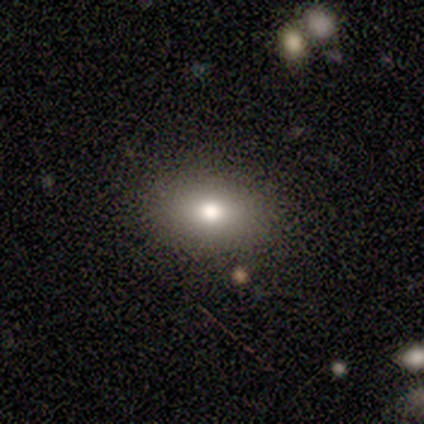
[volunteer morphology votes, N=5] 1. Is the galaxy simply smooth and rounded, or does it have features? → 60% smooth, 40% featured or disk, 0% star or artifact.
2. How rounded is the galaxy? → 67% in between, 33% cigar-shaped, 0% round.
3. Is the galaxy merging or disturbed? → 60% none, 40% minor disturbance, 0% major disturbance, 0% merger.